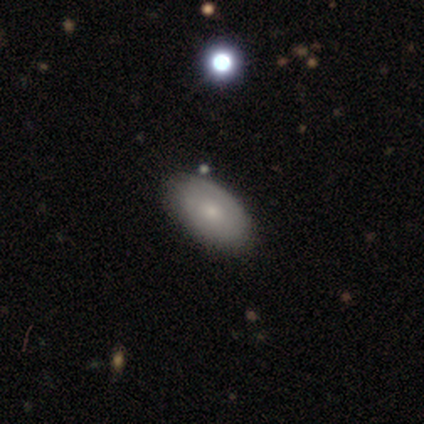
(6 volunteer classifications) Smooth or featured? 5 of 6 (83%) said smooth. How rounded? 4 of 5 (80%) said in between. Merging? 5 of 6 (83%) said none.